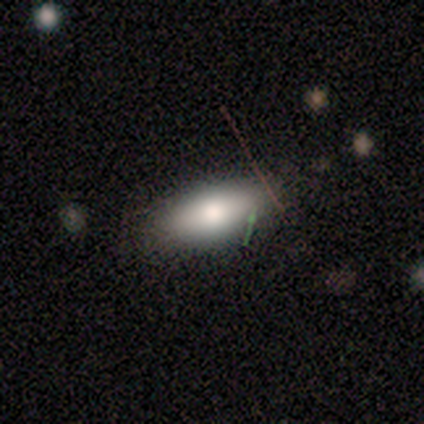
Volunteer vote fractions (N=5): A smooth galaxy with no disk features (80%) that is in between round and cigar-shaped (75%).

Vote fractions:
- Smooth or featured? smooth: 80% / featured or disk: 20% / star or artifact: 0%
- How rounded? in between: 75% / cigar-shaped: 25% / round: 0%
- Merging? none: 100% / minor disturbance: 0% / major disturbance: 0% / merger: 0%